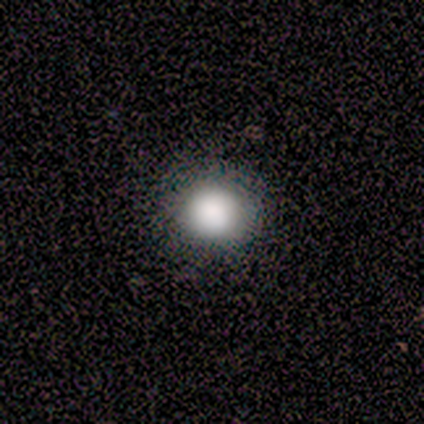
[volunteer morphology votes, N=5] Smooth or featured?
  - smooth: 100% *
  - featured or disk: 0%
  - star or artifact: 0%
How rounded?
  - round: 100% *
  - in between: 0%
  - cigar-shaped: 0%
Merging?
  - none: 100% *
  - minor disturbance: 0%
  - major disturbance: 0%
  - merger: 0%